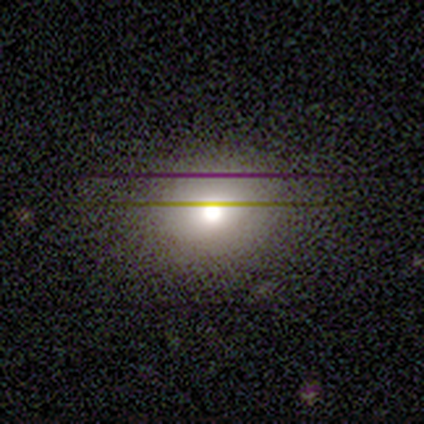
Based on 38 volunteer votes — Q: Smooth or featured?
A: smooth (74%); runner-up: featured or disk (13%)
Q: How rounded?
A: round (68%); runner-up: in between (32%)
Q: Merging?
A: none (79%); runner-up: minor disturbance (12%)